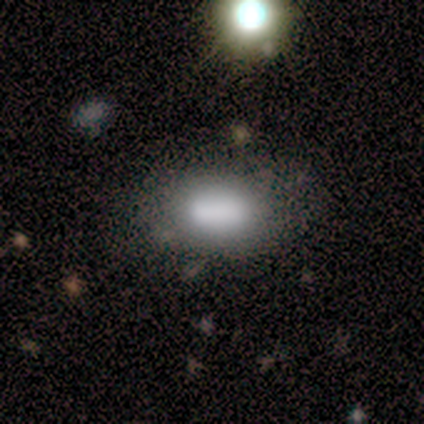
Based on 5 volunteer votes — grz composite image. It shows a smooth galaxy with no disk features (100%) that is in between round and cigar-shaped (80%). Merging: none (40%).